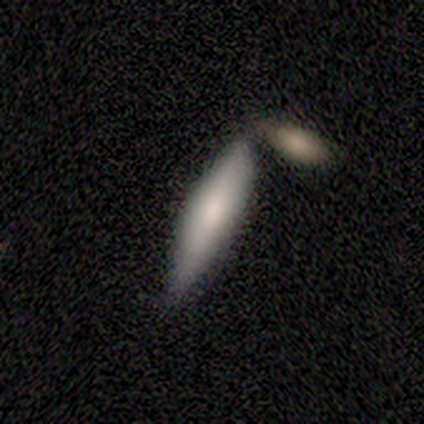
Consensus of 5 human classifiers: This is likely a featured or disk galaxy (60%). It is likely viewed edge-on (67%). Edge-on bulge: clearly rounded (100%). Merging: likely none (60%).